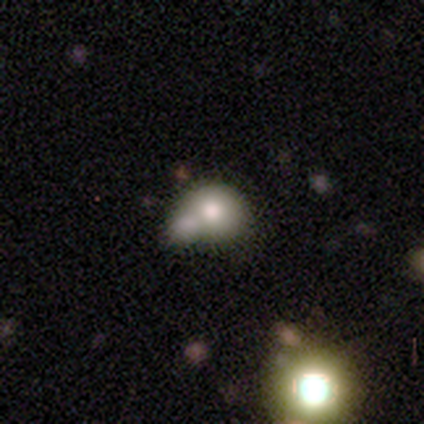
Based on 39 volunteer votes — A smooth galaxy with no disk features (69%) that is round (67%). Merging: merger (45%).